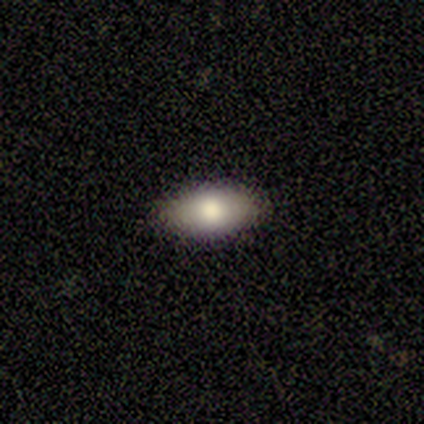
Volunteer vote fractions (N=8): A smooth galaxy with no disk features (62%) that is in between round and cigar-shaped (100%).

Vote fractions:
- Smooth or featured? smooth: 62% / star or artifact: 25% / featured or disk: 12%
- How rounded? in between: 100% / round: 0% / cigar-shaped: 0%
- Merging? none: 83% / minor disturbance: 17% / major disturbance: 0% / merger: 0%